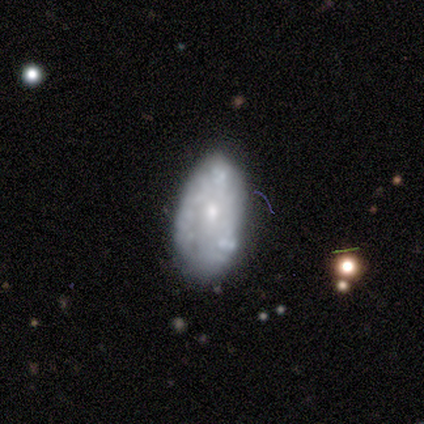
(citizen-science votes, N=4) Smooth or featured? 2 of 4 (50%) said smooth. How rounded? 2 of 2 (100%) said in between. Merging? 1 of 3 (33%, tied with minor disturbance and major disturbance) said none.